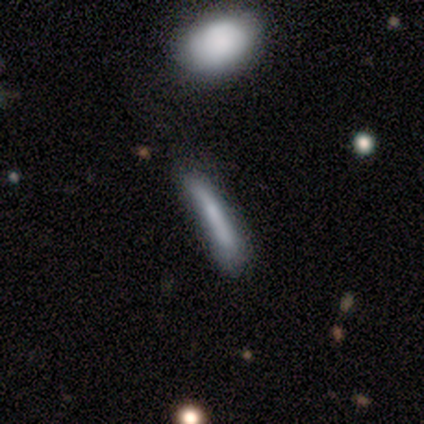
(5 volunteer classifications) Smooth or featured? smooth (60%)
How rounded? cigar-shaped (100%)
Merging? none (50%)